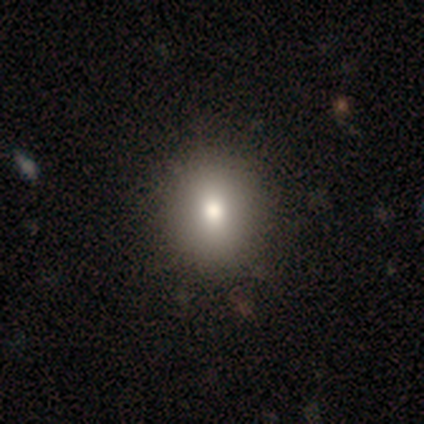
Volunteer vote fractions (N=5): Smooth or featured?
  - smooth: 40% * (tied)
  - star or artifact: 40% * (tied)
  - featured or disk: 20%
How rounded?
  - round: 50% * (tied)
  - in between: 50% * (tied)
  - cigar-shaped: 0%
Merging?
  - none: 67% *
  - major disturbance: 33%
  - minor disturbance: 0%
  - merger: 0%